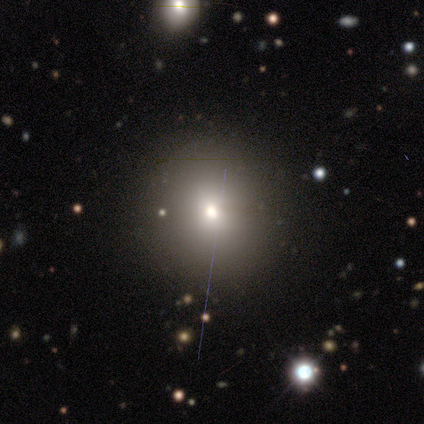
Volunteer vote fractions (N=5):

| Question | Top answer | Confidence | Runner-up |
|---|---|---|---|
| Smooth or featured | smooth | 80% | star or artifact (20%) |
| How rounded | round | 100% | — |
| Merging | none | 100% | — |